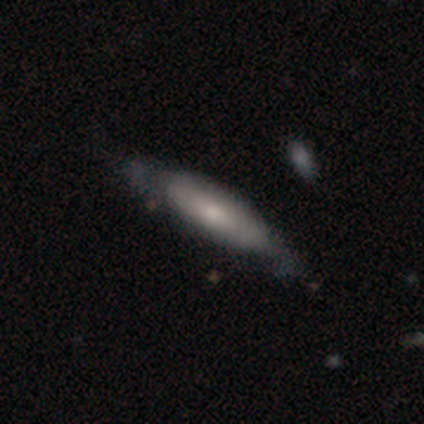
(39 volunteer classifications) Q: Smooth or featured?
A: featured or disk (49%); runner-up: smooth (46%)
Q: Edge-on disk?
A: no (63%); runner-up: yes (37%)
Q: Bar?
A: no (92%); runner-up: strong (8%)
Q: Spiral arms?
A: no (75%); runner-up: yes (25%)
Q: Bulge size?
A: moderate (42%); runner-up: small (33%)
Q: Merging?
A: none (65%); runner-up: minor disturbance (27%)